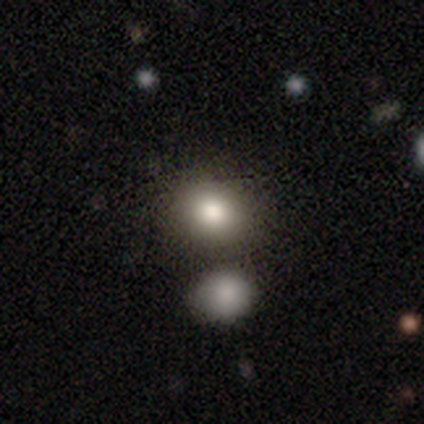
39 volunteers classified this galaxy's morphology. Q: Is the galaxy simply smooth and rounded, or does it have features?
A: smooth — 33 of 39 (85%).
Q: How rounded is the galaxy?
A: round — 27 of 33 (82%).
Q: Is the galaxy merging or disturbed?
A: none — 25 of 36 (69%).